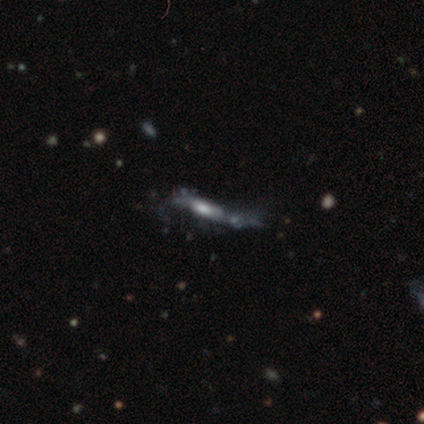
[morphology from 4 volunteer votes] Smooth or featured?
  - smooth: 50% * (tied)
  - featured or disk: 50% * (tied)
  - star or artifact: 0%
How rounded?
  - cigar-shaped: 100% *
  - round: 0%
  - in between: 0%
Merging?
  - major disturbance: 50% *
  - none: 25%
  - minor disturbance: 25%
  - merger: 0%